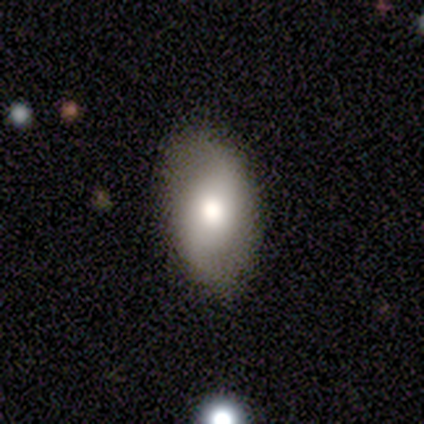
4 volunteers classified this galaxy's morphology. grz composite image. It shows a smooth galaxy with no disk features (75%) that is in between round and cigar-shaped (100%). Merging: none (100%).